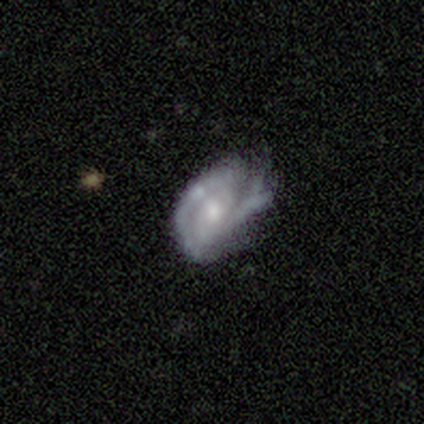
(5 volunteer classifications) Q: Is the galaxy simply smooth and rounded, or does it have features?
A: featured or disk — 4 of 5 (80%).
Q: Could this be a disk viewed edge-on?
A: no — 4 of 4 (100%).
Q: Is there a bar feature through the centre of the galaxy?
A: no — 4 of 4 (100%).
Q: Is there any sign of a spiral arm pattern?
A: yes — 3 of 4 (75%).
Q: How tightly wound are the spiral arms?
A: tight — 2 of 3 (67%).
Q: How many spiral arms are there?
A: can't tell — 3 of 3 (100%).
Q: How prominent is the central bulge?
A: moderate — 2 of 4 (50%).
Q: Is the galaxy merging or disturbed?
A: none — 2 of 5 (40%, tied with minor disturbance).